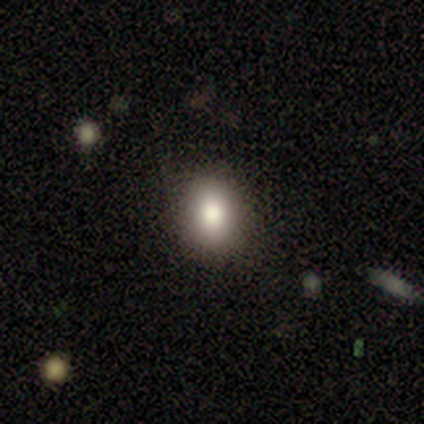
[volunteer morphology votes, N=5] A smooth galaxy with no disk features (100%) that is in between round and cigar-shaped (60%). Merging: none (80%).